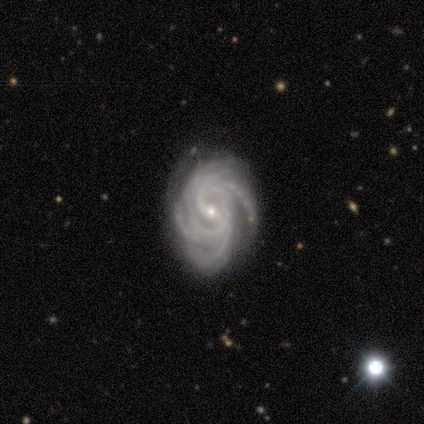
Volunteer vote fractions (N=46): This is clearly a featured or disk galaxy (98%). It is clearly not viewed edge-on (100%). Bar: marginally weak (42%). Spiral arm pattern: clearly yes (100%). Spiral arm count: marginally more than 4 (36%). Spiral winding: likely tight (69%). Central bulge: clearly small (98%). Merging: clearly none (80%).